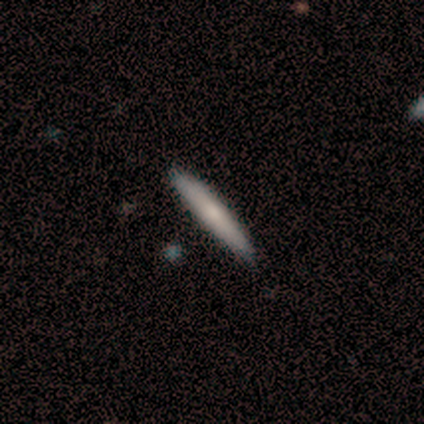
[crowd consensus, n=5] This appears to be a featured or disk galaxy (60%) viewed edge-on (100%) with no central bulge (67%). Merging: none (60%).